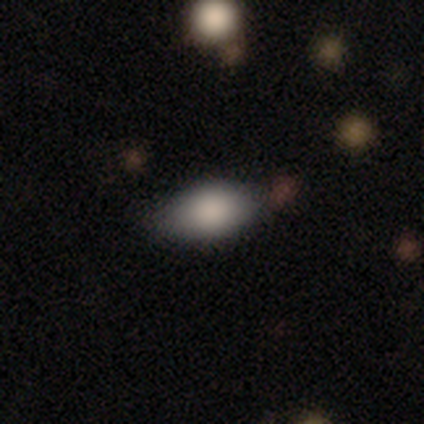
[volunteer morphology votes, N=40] Smooth or featured? smooth (88%)
How rounded? in between (100%)
Merging? none (82%)